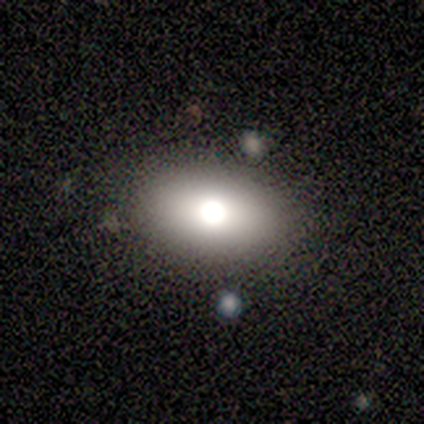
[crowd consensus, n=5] A smooth galaxy with no disk features (80%) that is in between round and cigar-shaped (75%). Merging: none (100%).